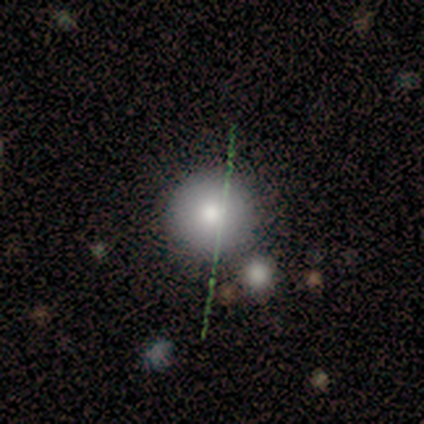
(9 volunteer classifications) smooth 67%, star or artifact 22%, featured or disk 11%. Down the decision tree: how rounded — round (100%); merging — none (71%).